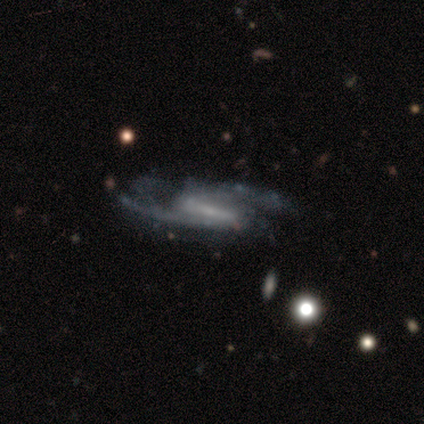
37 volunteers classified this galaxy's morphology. featured or disk 100%, smooth 0%, star or artifact 0%. Down the decision tree: edge-on disk — no (97%); bar — strong (67%); spiral arms — yes (100%); spiral arm count — 2 (89%); spiral winding — medium (56%); bulge size — small (72%); merging — none (38%).